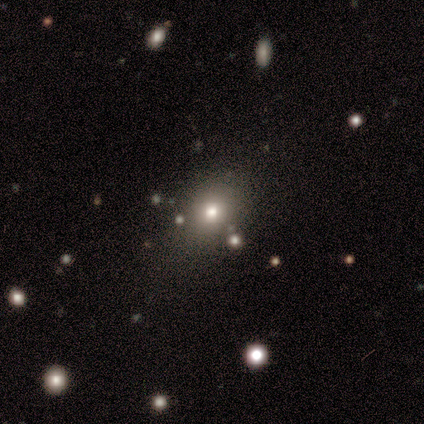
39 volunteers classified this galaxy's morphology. Q: Smooth or featured?
A: smooth (87%); runner-up: star or artifact (8%)
Q: How rounded?
A: round (71%); runner-up: in between (29%)
Q: Merging?
A: none (61%); runner-up: minor disturbance (8%)